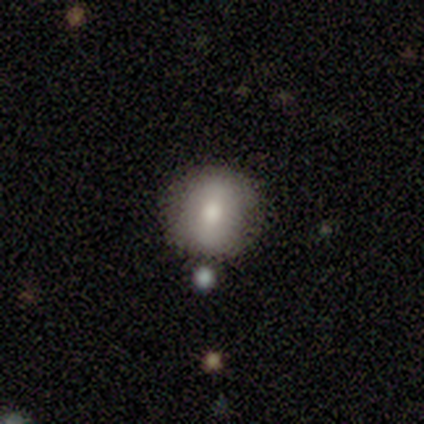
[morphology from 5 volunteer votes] This appears to be a smooth galaxy with no disk features (80%) that is round (75%). Merging: none (50%, tied with minor disturbance).